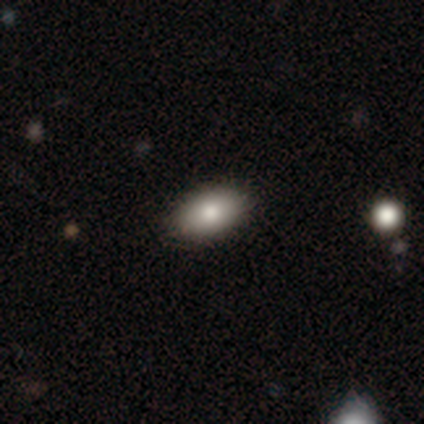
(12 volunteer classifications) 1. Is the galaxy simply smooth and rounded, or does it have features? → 92% smooth, 8% featured or disk, 0% star or artifact.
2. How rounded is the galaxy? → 100% in between, 0% round, 0% cigar-shaped.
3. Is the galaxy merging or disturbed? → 92% none, 8% minor disturbance, 0% major disturbance, 0% merger.